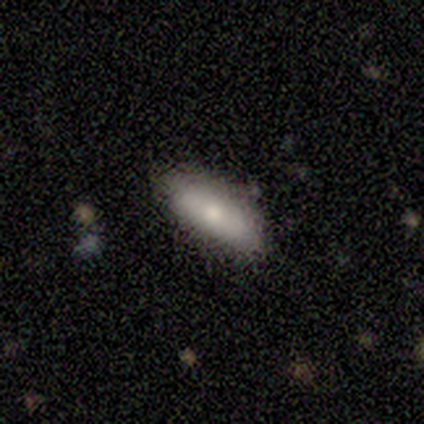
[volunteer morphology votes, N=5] This appears to be a featured or disk galaxy (60%) with no bar (67%), no spiral arms (100%) and a small central bulge (67%). Merging: none (80%).